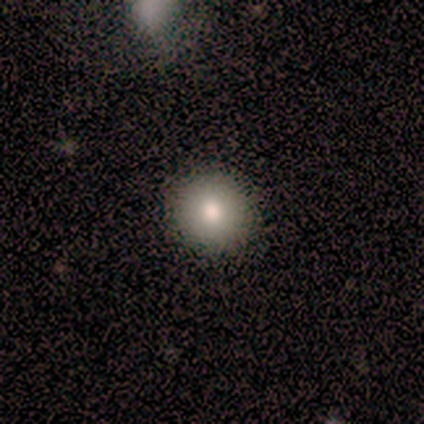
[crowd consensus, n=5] This appears to be a smooth galaxy with no disk features (100%) that is round (100%). Merging: none (80%).